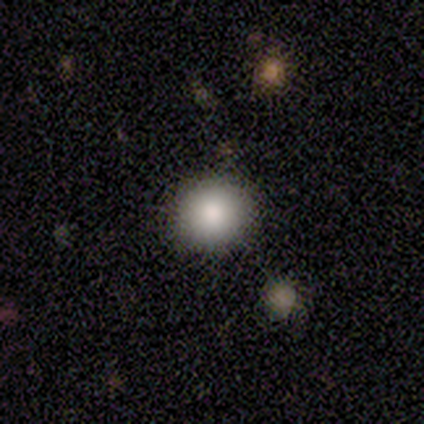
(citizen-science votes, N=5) A smooth galaxy with no disk features (100%) that is round (100%). Merging: none (80%).